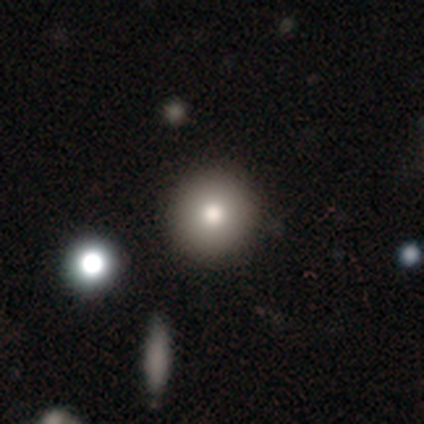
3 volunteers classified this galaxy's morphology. Smooth or featured?
  - smooth: 100% *
  - featured or disk: 0%
  - star or artifact: 0%
How rounded?
  - round: 100% *
  - in between: 0%
  - cigar-shaped: 0%
Merging?
  - none: 67% *
  - major disturbance: 33%
  - minor disturbance: 0%
  - merger: 0%